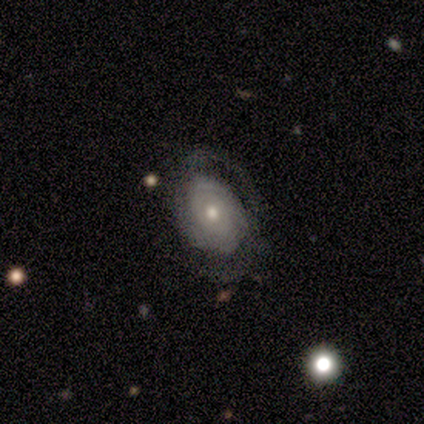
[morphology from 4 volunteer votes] featured or disk 50%, smooth 25%, star or artifact 25%. Down the decision tree: edge-on disk — no (100%); bar — no (100%); spiral arms — yes (50%, tied with no); spiral arm count — 2 (100%); spiral winding — tight (100%); bulge size — moderate (50%, tied with small); merging — none (100%).